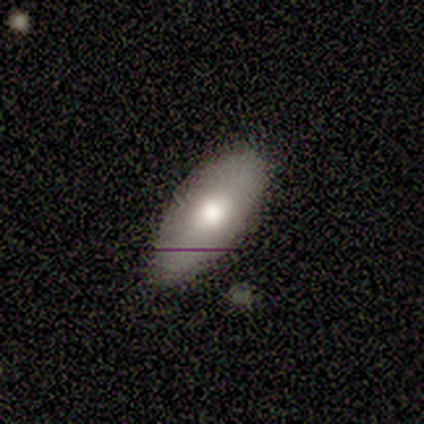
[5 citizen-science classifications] Smooth or featured: smooth — 80% (featured or disk — 20%)
How rounded: in between — 100%
Merging: none — 80% (minor disturbance — 20%)